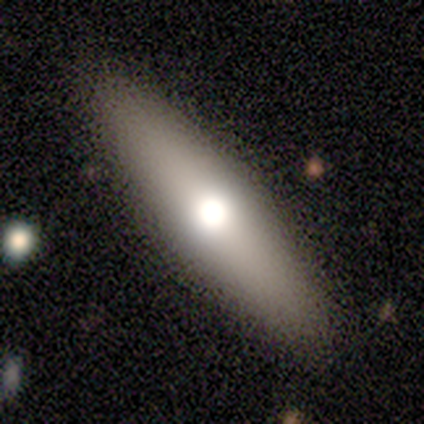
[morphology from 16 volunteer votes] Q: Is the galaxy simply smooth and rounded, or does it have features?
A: smooth — 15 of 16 (94%).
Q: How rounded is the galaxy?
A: cigar-shaped — 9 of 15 (60%).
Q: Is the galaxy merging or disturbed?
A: none — 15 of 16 (94%).